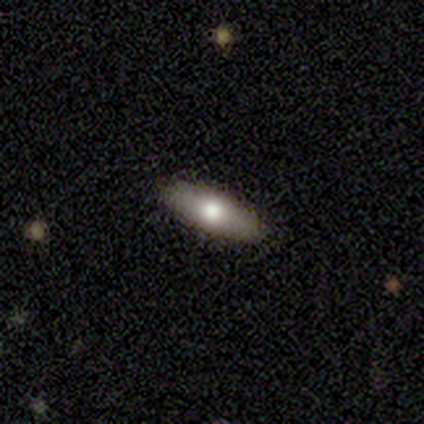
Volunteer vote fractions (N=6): Smooth or featured: smooth — 100%
How rounded: in between — 50% (tied with cigar-shaped — 50%)
Merging: none — 100%